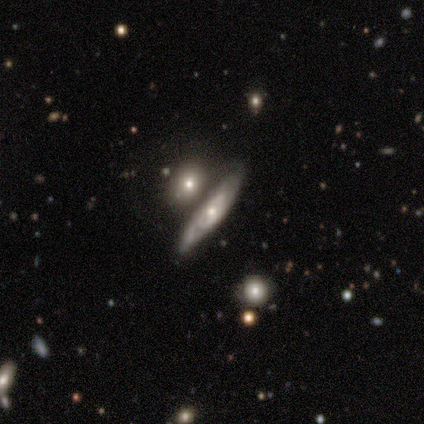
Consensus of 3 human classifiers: smooth_or_featured: featured or disk (p=0.67) [alt: smooth p=0.33]
disk_edge_on: yes (p=1.00)
edge_on_bulge: none (p=0.50) [tied with: rounded p=0.50]
merging: none (p=0.67) [alt: major disturbance p=0.33]